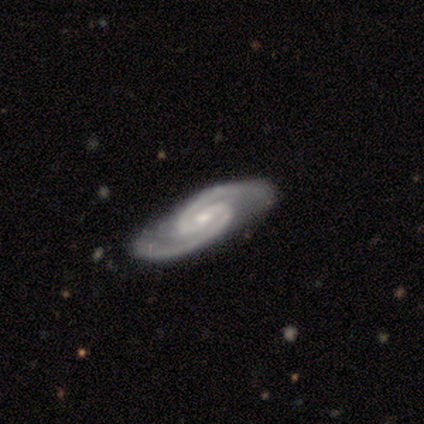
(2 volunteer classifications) smooth-or-featured: featured or disk: 100% | smooth: 0% | star or artifact: 0%
  disk-edge-on: no: 100% | yes: 0%
    bar: weak: 50% (tied) | no: 50% (tied) | strong: 0%
    has-spiral-arms: yes: 100% | no: 0%
      spiral-winding: tight: 50% (tied) | medium: 50% (tied) | loose: 0%
      spiral-arm-count: 2: 100% | 1: 0% | 3: 0% | 4: 0% | more than 4: 0% | can't tell: 0%
    bulge-size: small: 100% | dominant: 0% | large: 0% | moderate: 0% | none: 0%
  merging: none: 100% | minor disturbance: 0% | major disturbance: 0% | merger: 0%